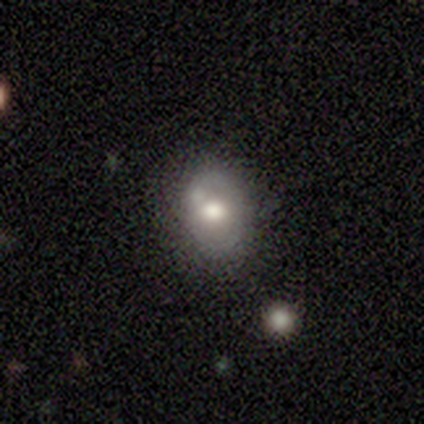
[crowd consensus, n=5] This appears to be a smooth galaxy with no disk features (80%) that is in between round and cigar-shaped (75%). Merging: none (80%).